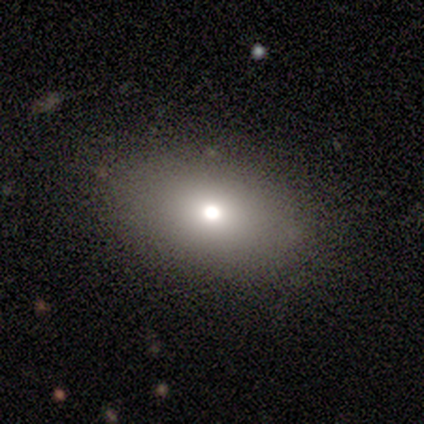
Smooth or featured?
  - smooth: 60% *
  - star or artifact: 40%
  - featured or disk: 0%
How rounded?
  - in between: 67% *
  - round: 33%
  - cigar-shaped: 0%
Merging?
  - none: 100% *
  - minor disturbance: 0%
  - major disturbance: 0%
  - merger: 0%